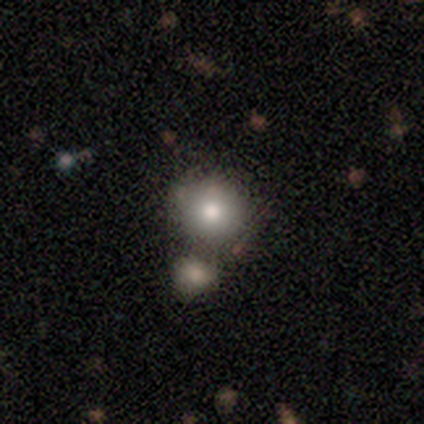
Smooth or featured?
  - smooth: 74% *
  - star or artifact: 15%
  - featured or disk: 10%
How rounded?
  - round: 93% *
  - in between: 3%
  - cigar-shaped: 3%
Merging?
  - merger: 67% *
  - none: 0%
  - minor disturbance: 0%
  - major disturbance: 0%